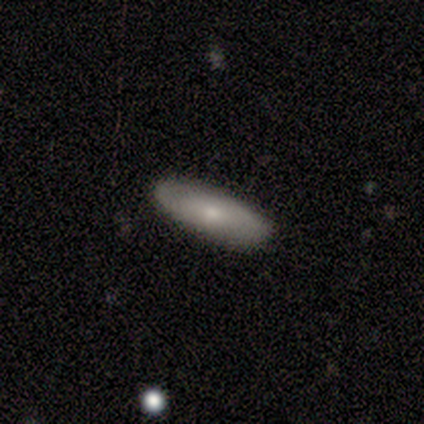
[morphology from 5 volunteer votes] smooth-or-featured: smooth: 60% | featured or disk: 40% | star or artifact: 0%
  how-rounded: in between: 67% | cigar-shaped: 33% | round: 0%
  merging: none: 100% | minor disturbance: 0% | major disturbance: 0% | merger: 0%